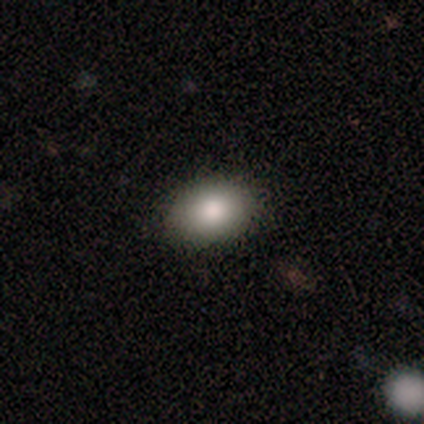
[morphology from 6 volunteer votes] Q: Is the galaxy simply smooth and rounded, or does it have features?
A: smooth — 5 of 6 (83%).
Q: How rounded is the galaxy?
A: in between — 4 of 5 (80%).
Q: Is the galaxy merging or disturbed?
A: none — 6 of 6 (100%).